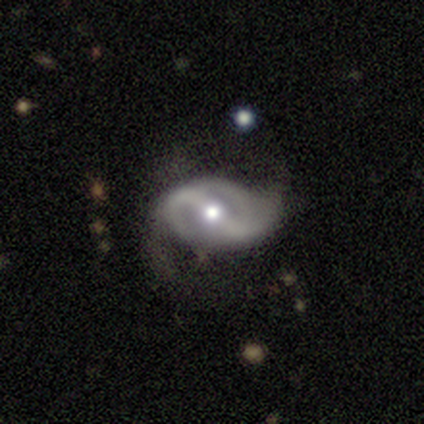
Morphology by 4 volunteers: smooth_or_featured: featured or disk (p=1.00)
disk_edge_on: no (p=1.00)
bar: strong (p=0.75) [alt: weak p=0.25]
has_spiral_arms: yes (p=1.00)
spiral_winding: medium (p=0.75) [alt: loose p=0.25]
spiral_arm_count: 2 (p=0.75) [alt: can't tell p=0.25]
bulge_size: moderate (p=1.00)
merging: none (p=0.75) [alt: major disturbance p=0.25]